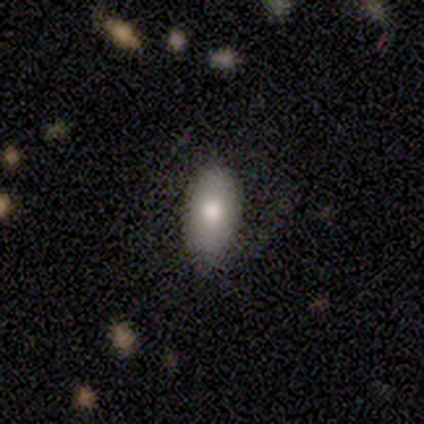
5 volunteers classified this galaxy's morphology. Smooth or featured: smooth — 80% (featured or disk — 20%)
How rounded: in between — 100%
Merging: none — 40% (tied with minor disturbance — 40%)